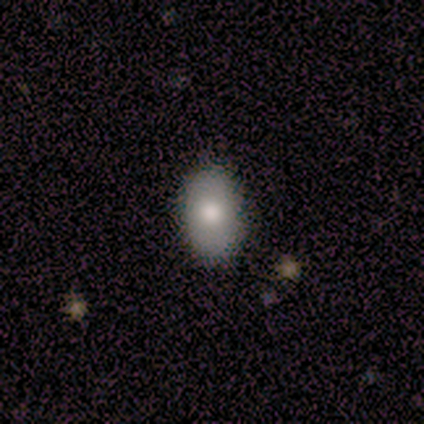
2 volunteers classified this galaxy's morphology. Smooth or featured? 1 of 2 (50%, tied with star or artifact) said smooth. How rounded? 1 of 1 (100%) said in between. Merging? 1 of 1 (100%) said none.